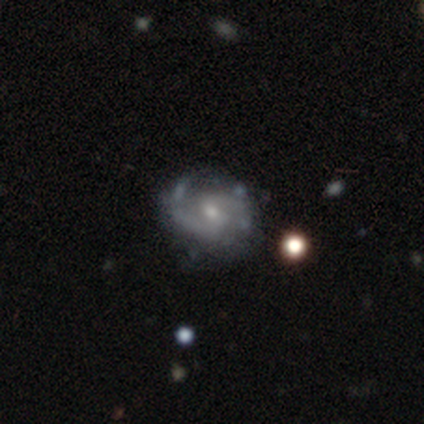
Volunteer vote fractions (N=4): Volunteers were most divided on "bar" (2-way tie): weak: 50%, no: 50%, strong: 0%; "spiral winding" (2-way tie): tight: 50%, medium: 50%, loose: 0%; "bulge size" (2-way tie): moderate: 50%, small: 50%, dominant: 0%, large: 0%, none: 0%. More confident: smooth or featured — featured or disk (100%); edge-on disk — no (100%); spiral arms — yes (100%); merging — none (100%); spiral arm count — 2 (75%).